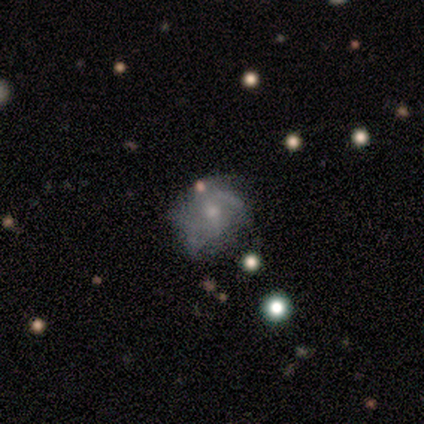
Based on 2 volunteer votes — Smooth or featured?
  - featured or disk: 100% *
  - smooth: 0%
  - star or artifact: 0%
Edge-on disk?
  - no: 100% *
  - yes: 0%
Bar?
  - no: 100% *
  - strong: 0%
  - weak: 0%
Spiral arms?
  - yes: 100% *
  - no: 0%
Spiral winding?
  - medium: 100% *
  - tight: 0%
  - loose: 0%
Spiral arm count?
  - 3: 50% * (tied)
  - 4: 50% * (tied)
  - 1: 0%
  - 2: 0%
  - more than 4: 0%
  - can't tell: 0%
Bulge size?
  - moderate: 50% * (tied)
  - small: 50% * (tied)
  - dominant: 0%
  - large: 0%
  - none: 0%
Merging?
  - minor disturbance: 50% * (tied)
  - major disturbance: 50% * (tied)
  - none: 0%
  - merger: 0%